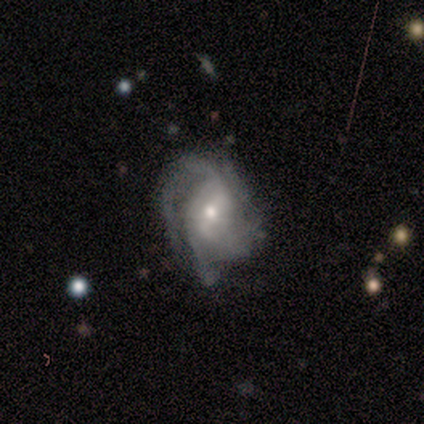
Smooth or featured?
  - featured or disk: 100% *
  - smooth: 0%
  - star or artifact: 0%
Edge-on disk?
  - no: 100% *
  - yes: 0%
Bar?
  - weak: 50% * (tied)
  - no: 50% * (tied)
  - strong: 0%
Spiral arms?
  - yes: 75% *
  - no: 25%
Spiral winding?
  - medium: 67% *
  - tight: 33%
  - loose: 0%
Spiral arm count?
  - 2: 33% * (tied)
  - 3: 33% * (tied)
  - can't tell: 33% * (tied)
  - 1: 0%
  - 4: 0%
  - more than 4: 0%
Bulge size?
  - moderate: 75% *
  - small: 25%
  - dominant: 0%
  - large: 0%
  - none: 0%
Merging?
  - minor disturbance: 75% *
  - none: 25%
  - major disturbance: 0%
  - merger: 0%